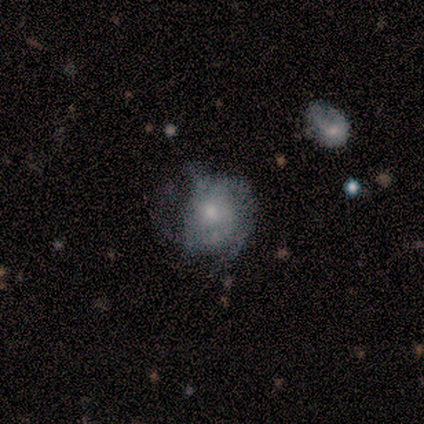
A featured or disk galaxy (67%) with no bar (86%), tight (54%) spiral arms (76%) and a moderate central bulge (47%). Merging: none (43%).